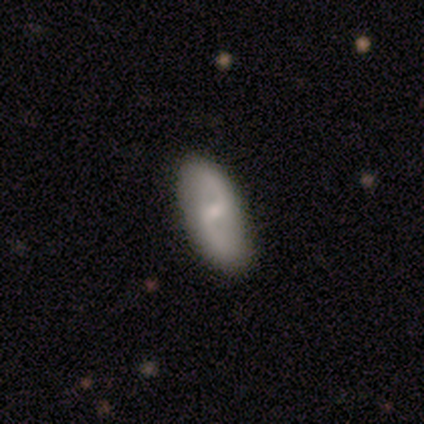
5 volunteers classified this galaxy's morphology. Smooth or featured? featured or disk (100%)
Edge-on disk? no (100%)
Bar? weak (80%)
Spiral arms? yes (80%)
Spiral winding? loose (75%)
Spiral arm count? 2 (75%)
Bulge size? small (100%)
Merging? none (100%)